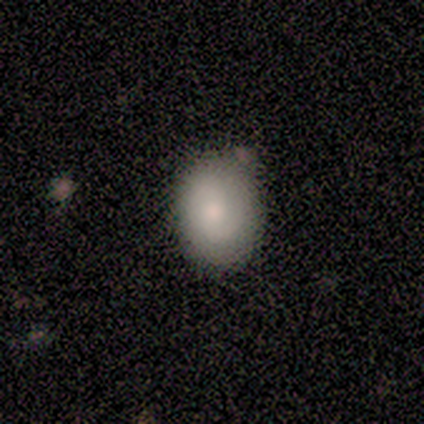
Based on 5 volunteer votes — Q: Smooth or featured?
A: smooth (60%); runner-up: featured or disk (40%)
Q: How rounded?
A: round (67%); runner-up: in between (33%)
Q: Merging?
A: none (80%); runner-up: merger (20%)